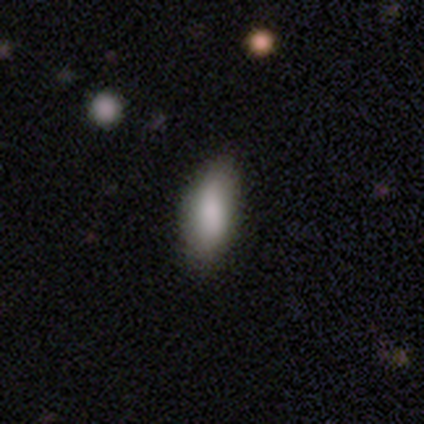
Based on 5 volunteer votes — A smooth galaxy with no disk features (100%) that is in between round and cigar-shaped (60%). Merging: none (80%).